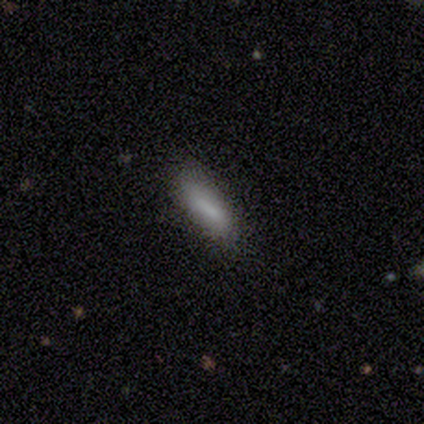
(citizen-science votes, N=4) smooth-or-featured: smooth: 75% | star or artifact: 25% | featured or disk: 0%
  how-rounded: cigar-shaped: 67% | in between: 33% | round: 0%
  merging: none: 67% | minor disturbance: 33% | major disturbance: 0% | merger: 0%